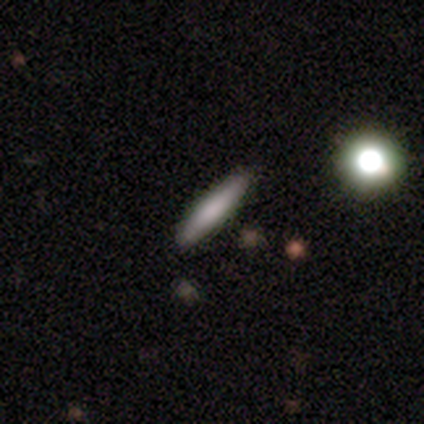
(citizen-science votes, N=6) This appears to be a smooth galaxy with no disk features (100%) that is cigar-shaped (83%). Merging: none (100%).